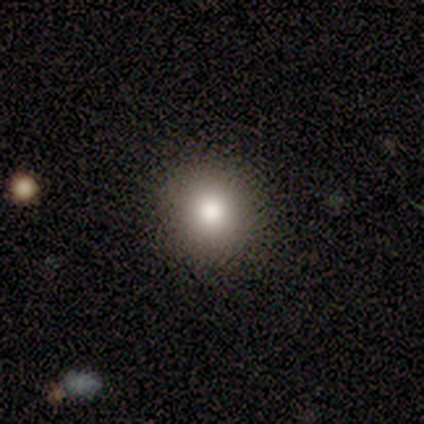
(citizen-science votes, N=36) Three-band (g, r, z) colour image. It shows a smooth galaxy with no disk features (69%) that is round (96%). Merging: none (83%).